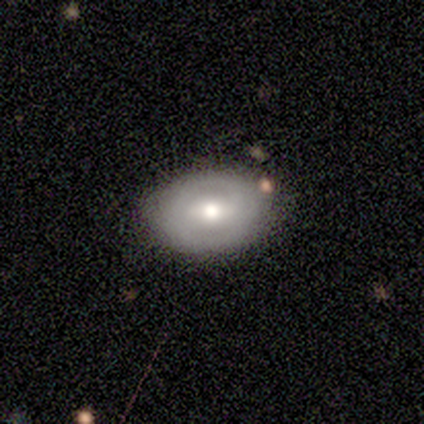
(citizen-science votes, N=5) This is likely a featured or disk galaxy (60%). It is clearly not viewed edge-on (100%). Bar: marginally strong (33%, tied with weak and no). Spiral arm pattern: clearly no (100%). Central bulge: clearly moderate (100%). Merging: possibly none (50%, tied with minor disturbance).